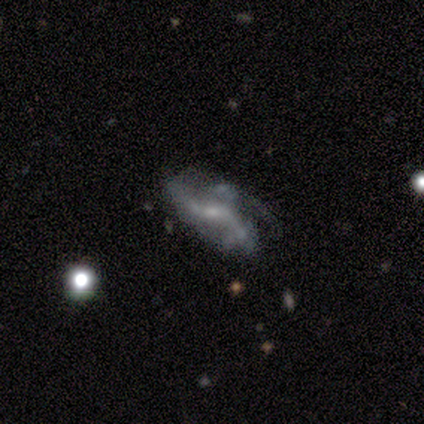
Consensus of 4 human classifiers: Smooth or featured: featured or disk — 100%
Edge-on disk: no — 100%
Bar: weak — 75% (no — 25%)
Spiral arms: yes — 50% (tied with no — 50%)
Spiral winding: medium — 100%
Spiral arm count: 3 — 100%
Bulge size: moderate — 75% (small — 25%)
Merging: none — 75% (major disturbance — 25%)